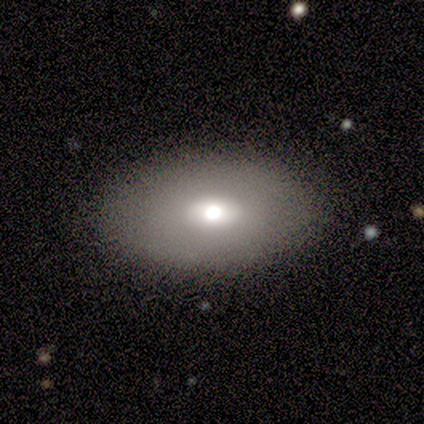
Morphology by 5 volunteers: Smooth or featured: featured or disk — 60% (smooth — 40%)
Edge-on disk: no — 100%
Bar: no — 100%
Spiral arms: no — 100%
Bulge size: moderate — 67% (small — 33%)
Merging: none — 100%